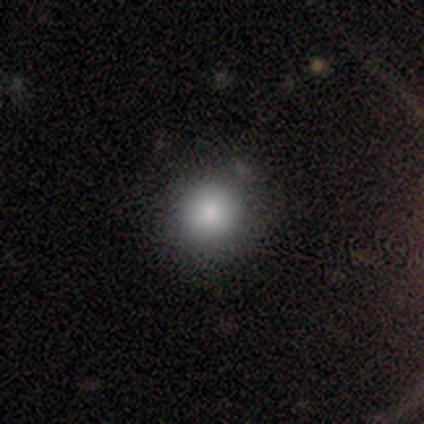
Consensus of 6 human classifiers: Smooth or featured: smooth — 83% (featured or disk — 17%)
How rounded: round — 100%
Merging: none — 67% (minor disturbance — 33%)